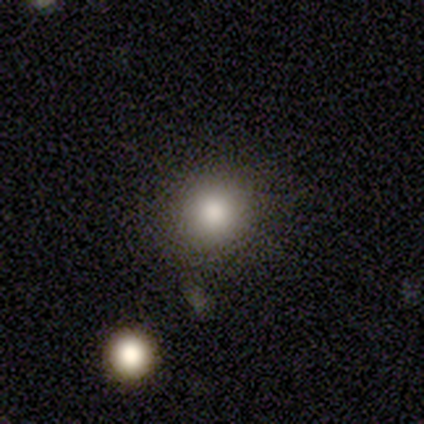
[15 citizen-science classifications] smooth 80%, star or artifact 20%, featured or disk 0%. Down the decision tree: how rounded — round (92%); merging — none (100%).